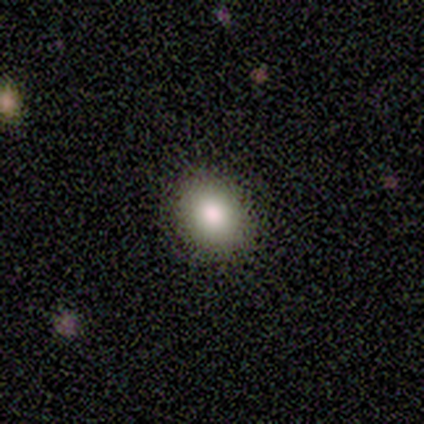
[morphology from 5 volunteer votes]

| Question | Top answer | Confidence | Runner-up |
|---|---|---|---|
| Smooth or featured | smooth | 100% | — |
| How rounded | in between | 80% | round (20%) |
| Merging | none | 100% | — |